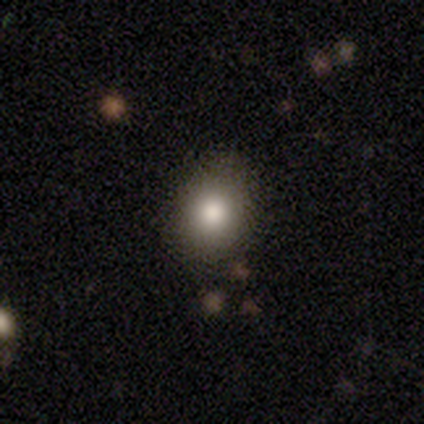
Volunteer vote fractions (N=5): smooth 80%, featured or disk 20%, star or artifact 0%. Down the decision tree: how rounded — in between (75%); merging — none (60%).